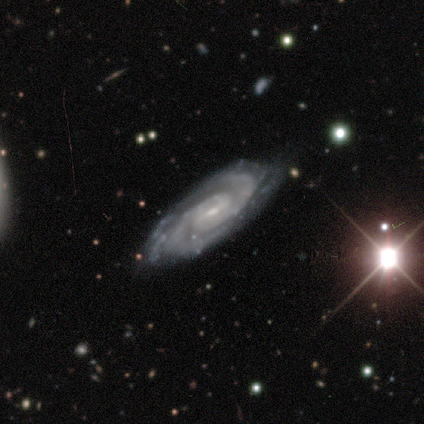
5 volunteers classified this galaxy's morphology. Smooth or featured? 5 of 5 (100%) said featured or disk. Edge-on disk? 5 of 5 (100%) said no. Bar? 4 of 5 (80%) said weak. Spiral arms? 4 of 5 (80%) said yes. Spiral winding? 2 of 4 (50%, tied with medium) said tight. Spiral arm count? 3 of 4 (75%) said 2. Bulge size? 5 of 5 (100%) said small. Merging? 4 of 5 (80%) said none.